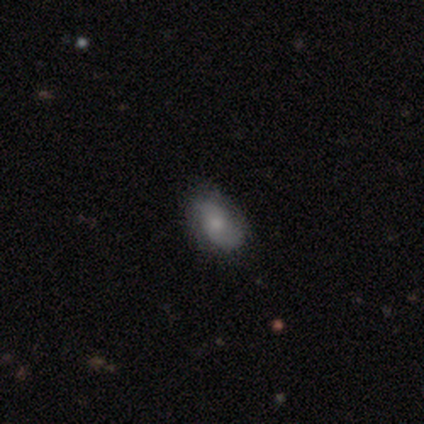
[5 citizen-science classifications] This is likely a smooth galaxy (60%). How rounded: clearly in between (100%). Merging: clearly none (100%).